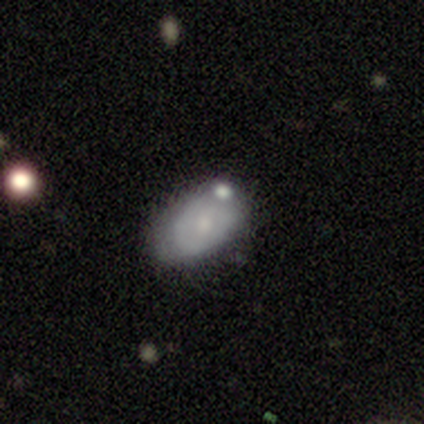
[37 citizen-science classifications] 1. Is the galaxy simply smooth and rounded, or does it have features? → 59% smooth, 32% featured or disk, 8% star or artifact.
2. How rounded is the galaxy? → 95% in between, 5% cigar-shaped, 0% round.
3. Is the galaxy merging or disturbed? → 62% none, 21% minor disturbance, 12% merger, 6% major disturbance.